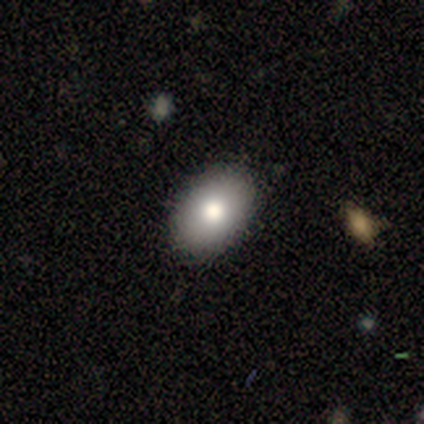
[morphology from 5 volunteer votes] Smooth or featured?
  - smooth: 80% *
  - featured or disk: 20%
  - star or artifact: 0%
How rounded?
  - in between: 75% *
  - round: 25%
  - cigar-shaped: 0%
Merging?
  - none: 100% *
  - minor disturbance: 0%
  - major disturbance: 0%
  - merger: 0%